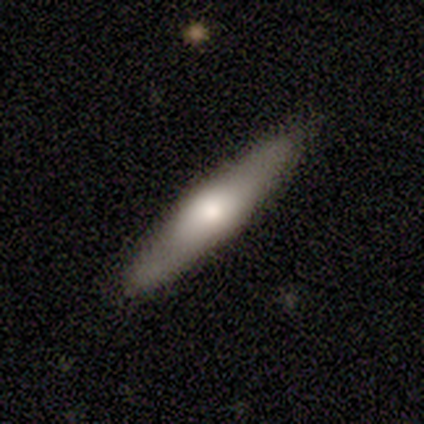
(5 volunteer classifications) Volunteers were most divided on "smooth or featured": featured or disk: 80%, smooth: 20%, star or artifact: 0%. More confident: edge-on disk — yes (100%); edge-on bulge — rounded (100%); merging — none (100%).